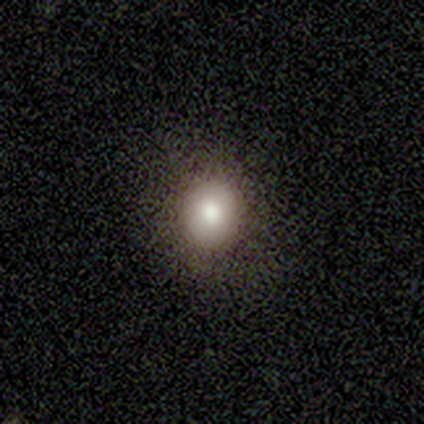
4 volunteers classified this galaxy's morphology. Q: Smooth or featured?
A: smooth (100%)
Q: How rounded?
A: round (75%); runner-up: in between (25%)
Q: Merging?
A: none (75%); runner-up: minor disturbance (25%)